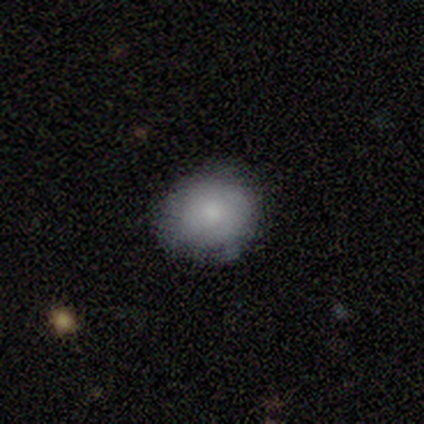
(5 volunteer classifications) A smooth galaxy with no disk features (100%) that is round (80%). Merging: none (100%).